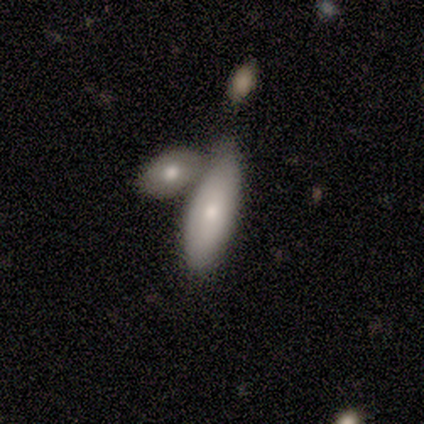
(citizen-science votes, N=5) Overall: smooth (80%). How rounded: in between (100%). Merging: merger (60%; none 20%).